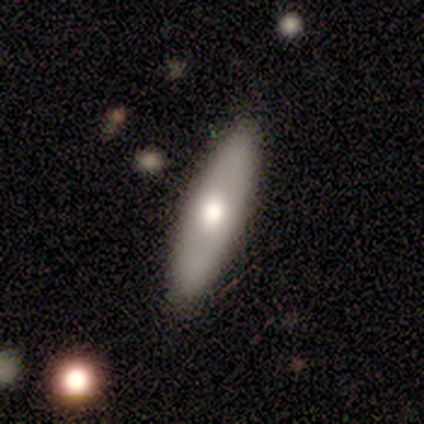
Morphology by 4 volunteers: A smooth galaxy with no disk features (50%) that is in between round and cigar-shaped (100%).

Vote fractions:
- Smooth or featured? smooth: 50% / featured or disk: 25% / star or artifact: 25%
- How rounded? in between: 100% / round: 0% / cigar-shaped: 0%
- Merging? none: 67% / minor disturbance: 33% / major disturbance: 0% / merger: 0%